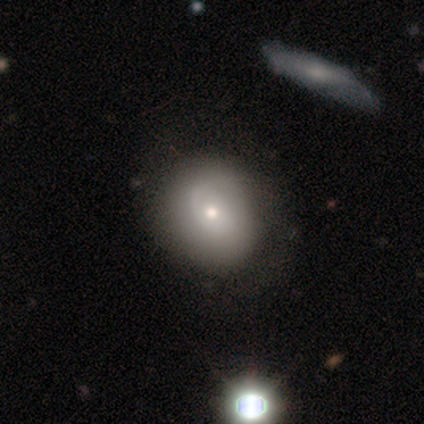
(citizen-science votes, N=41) A smooth galaxy with no disk features (49%) that is round (85%).

Vote fractions:
- Smooth or featured? smooth: 49% / featured or disk: 46% / star or artifact: 5%
- How rounded? round: 85% / in between: 15% / cigar-shaped: 0%
- Merging? none: 44% / minor disturbance: 10% / merger: 10% / major disturbance: 5%